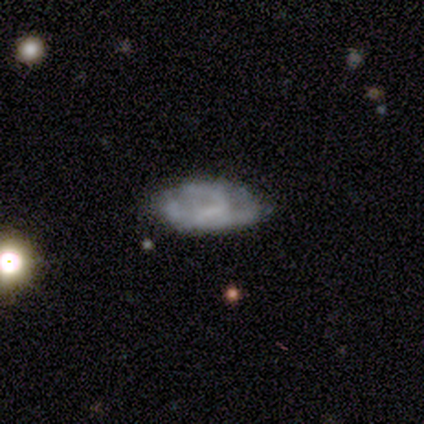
A featured or disk galaxy (60%) with no bar (100%), no spiral arms (100%) and no central bulge (67%). Merging: none (60%).